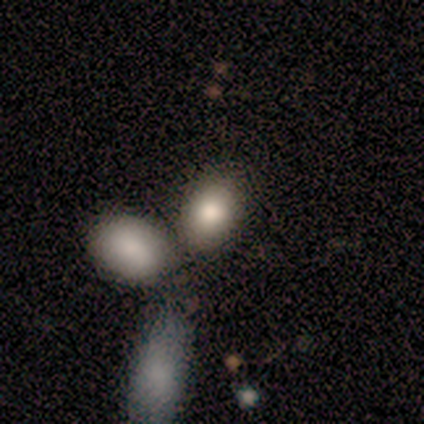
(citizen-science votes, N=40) Morphology: type=smooth (82%); roundness=in between (82%); merging=merger (39%).